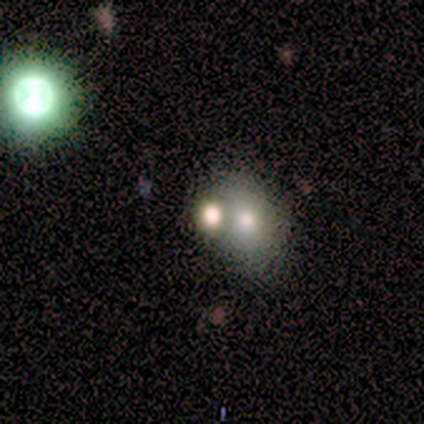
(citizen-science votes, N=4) This is possibly a smooth galaxy (50%, tied with star or artifact). How rounded: possibly round (50%, tied with in between). Merging: possibly none (50%, tied with merger).